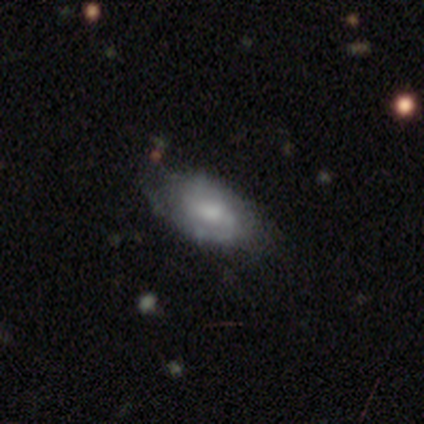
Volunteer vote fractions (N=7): Morphology: type=smooth (57%); roundness=in between (100%); merging=none (57%).